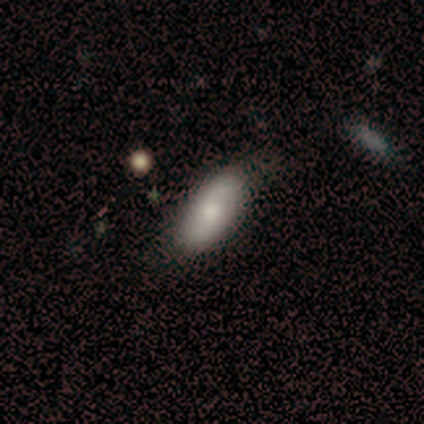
This is likely a featured or disk galaxy (60%). It is clearly not viewed edge-on (100%). Bar: likely weak (67%). Spiral arm pattern: likely yes (67%). Spiral arm count: clearly 2 (100%). Spiral winding: possibly tight (50%, tied with loose). Central bulge: clearly moderate (100%). Merging: clearly none (80%).